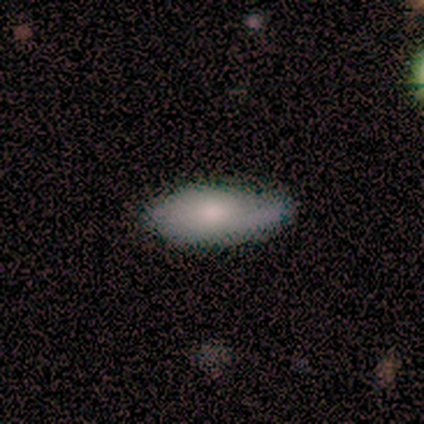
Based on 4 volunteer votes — Smooth or featured? 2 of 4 (50%, tied with featured or disk) said smooth. How rounded? 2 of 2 (100%) said in between. Merging? 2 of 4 (50%, tied with minor disturbance) said none.